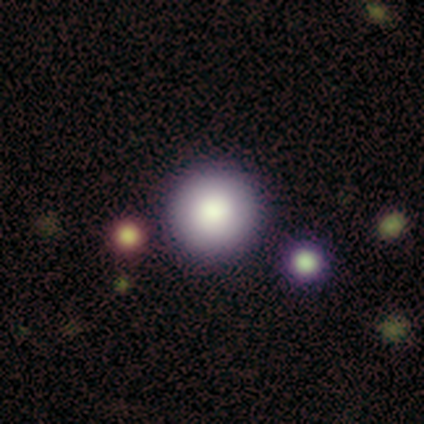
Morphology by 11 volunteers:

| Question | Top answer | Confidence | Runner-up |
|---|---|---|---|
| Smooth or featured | smooth | 45% | tied: featured or disk (45%) |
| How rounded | round | 100% | — |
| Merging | none | 80% | minor disturbance (20%) |